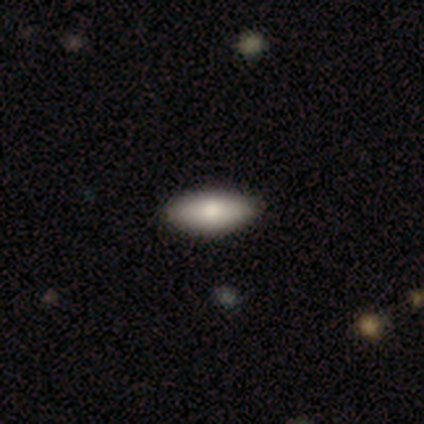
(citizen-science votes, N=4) smooth_or_featured: smooth (p=0.50) [tied with: featured or disk p=0.50]
how_rounded: round (p=0.50) [tied with: in between p=0.50]
merging: none (p=1.00)